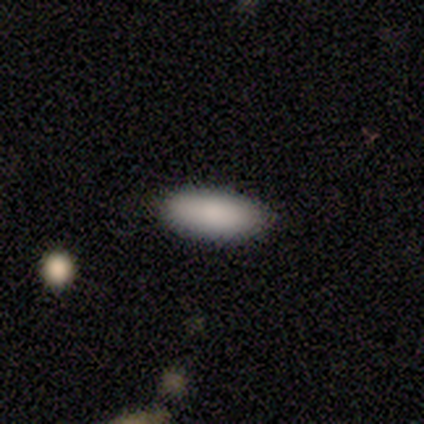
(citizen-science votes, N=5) Volunteers were most divided on "how rounded" (2-way tie): in between: 50%, cigar-shaped: 50%, round: 0%. More confident: merging — none (100%); smooth or featured — smooth (80%).